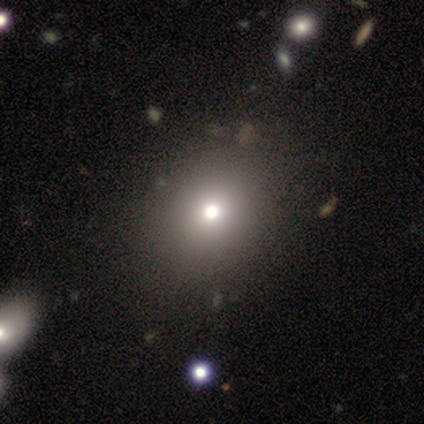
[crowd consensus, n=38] Smooth or featured? 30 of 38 (79%) said smooth. How rounded? 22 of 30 (73%) said round. Merging? 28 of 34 (82%) said none.